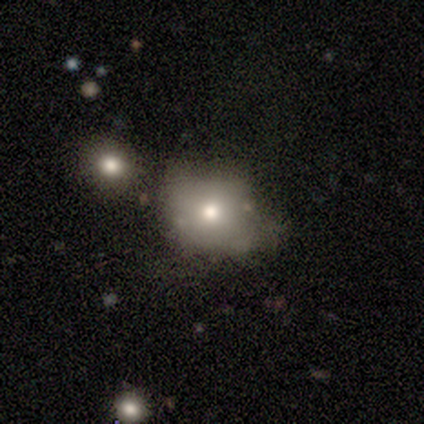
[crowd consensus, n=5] Q: Smooth or featured?
A: smooth (60%); runner-up: featured or disk (40%)
Q: How rounded?
A: round (67%); runner-up: in between (33%)
Q: Merging?
A: none (40%); tied with: minor disturbance (40%)